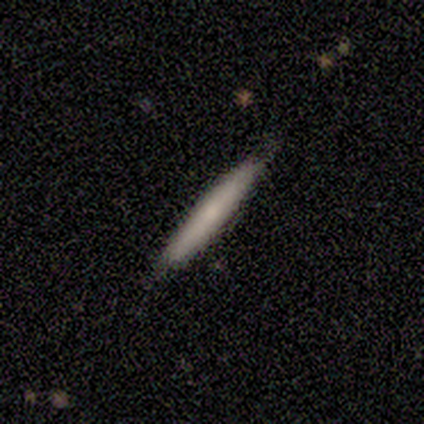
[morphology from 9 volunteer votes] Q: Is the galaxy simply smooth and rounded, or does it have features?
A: smooth — 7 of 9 (78%).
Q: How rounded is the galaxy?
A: cigar-shaped — 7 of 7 (100%).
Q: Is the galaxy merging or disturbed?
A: none — 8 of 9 (89%).